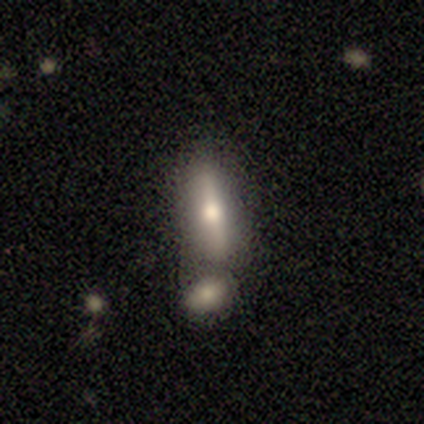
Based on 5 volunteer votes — Morphology: type=smooth (80%); roundness=cigar-shaped (75%); merging=merger (60%).